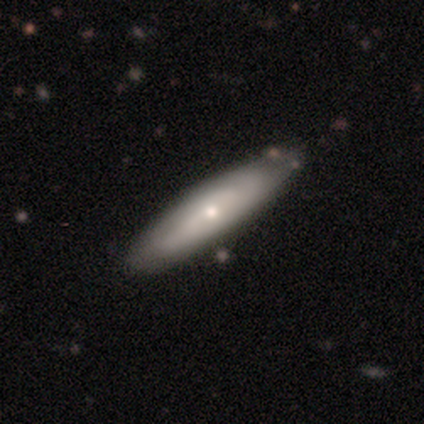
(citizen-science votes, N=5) This is clearly a featured or disk galaxy (80%). It is likely not viewed edge-on (75%). Bar: likely weak (67%). Spiral arm pattern: clearly yes (100%). Spiral arm count: likely can't tell (67%). Spiral winding: marginally tight (33%, tied with medium and loose). Central bulge: clearly small (100%). Merging: likely none (60%).